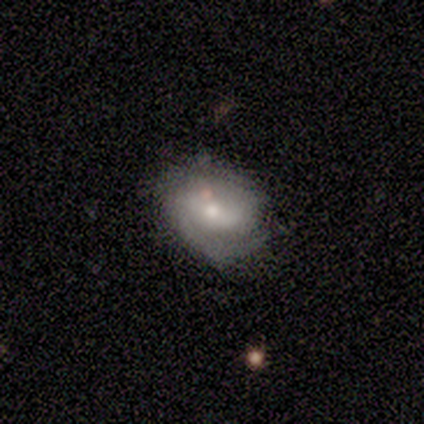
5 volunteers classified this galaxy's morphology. Volunteers were most divided on "bulge size" (2-way tie): moderate: 50%, small: 50%, dominant: 0%, large: 0%, none: 0%. More confident: edge-on disk — no (100%); smooth or featured — featured or disk (80%); merging — none (80%); spiral arms — yes (75%); spiral winding — medium (67%); spiral arm count — 2 (67%); bar — weak (50%).